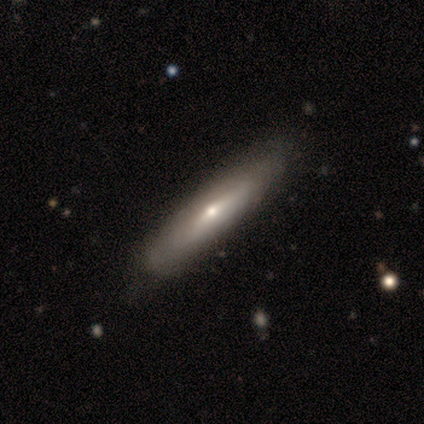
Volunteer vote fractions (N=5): This is likely a smooth galaxy (60%). How rounded: likely cigar-shaped (67%). Merging: clearly none (100%).